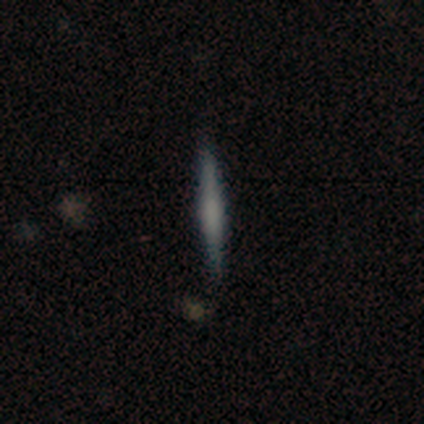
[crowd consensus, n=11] featured or disk 55%, smooth 45%, star or artifact 0%. Down the decision tree: edge-on disk — yes (100%); edge-on bulge — none (67%); merging — none (100%).